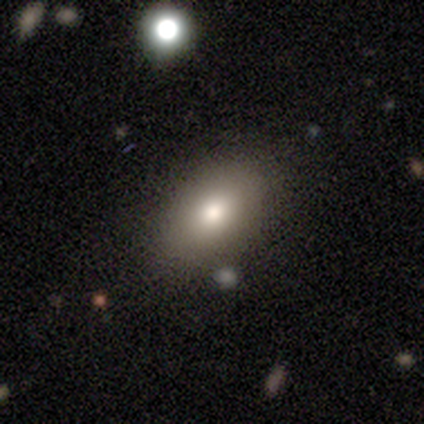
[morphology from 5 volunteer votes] This is clearly a smooth galaxy (100%). How rounded: clearly in between (100%). Merging: clearly none (80%).